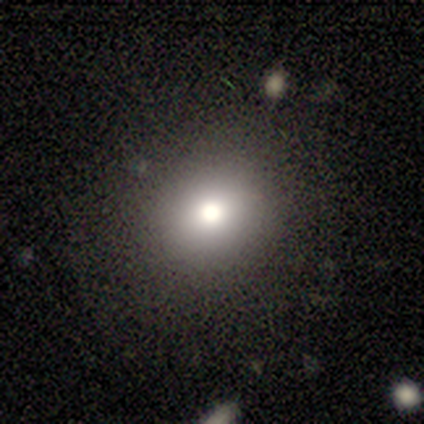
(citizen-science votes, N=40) Smooth or featured: smooth — 82% (star or artifact — 10%)
How rounded: round — 91% (in between — 9%)
Merging: none — 94% (minor disturbance — 6%)